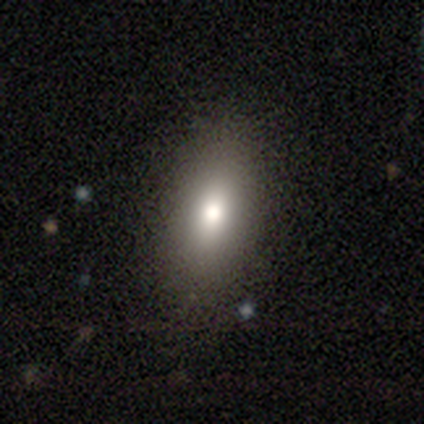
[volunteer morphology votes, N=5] Q: Smooth or featured?
A: smooth (60%); runner-up: featured or disk (40%)
Q: How rounded?
A: in between (100%)
Q: Merging?
A: none (100%)